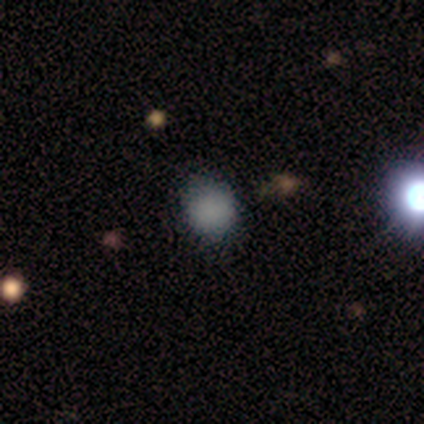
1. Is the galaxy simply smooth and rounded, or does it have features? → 50% smooth (tied), 50% star or artifact (tied), 0% featured or disk.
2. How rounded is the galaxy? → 100% round, 0% in between, 0% cigar-shaped.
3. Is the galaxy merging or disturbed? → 100% none, 0% minor disturbance, 0% major disturbance, 0% merger.